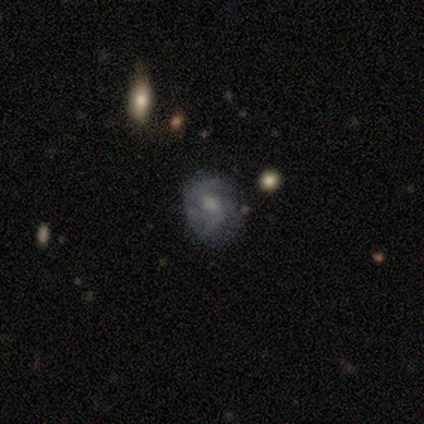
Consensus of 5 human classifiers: Volunteers were most divided on "spiral arm count" (3-way tie): 1: 33%, 2: 33%, can't tell: 33%, 3: 0%, 4: 0%, more than 4: 0%; "bulge size" (3-way tie): moderate: 33%, small: 33%, none: 33%, dominant: 0%, large: 0%. More confident: edge-on disk — no (100%); spiral arms — yes (100%); merging — none (100%); bar — no (67%); spiral winding — medium (67%); smooth or featured — featured or disk (60%).